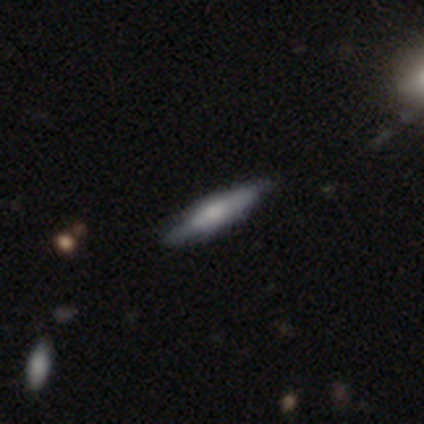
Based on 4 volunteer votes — A smooth galaxy with no disk features (75%) that is cigar-shaped (100%). Merging: none (100%).